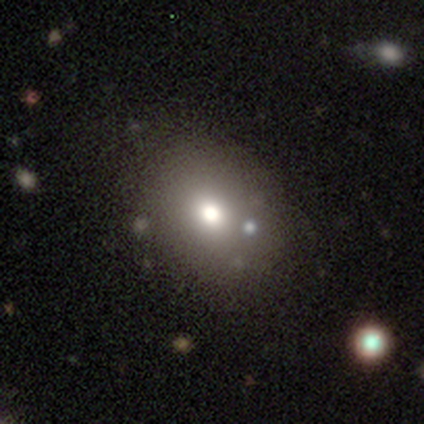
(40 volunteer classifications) Q: Smooth or featured?
A: smooth (70%); runner-up: featured or disk (22%)
Q: How rounded?
A: in between (64%); runner-up: round (36%)
Q: Merging?
A: none (62%); runner-up: merger (11%)